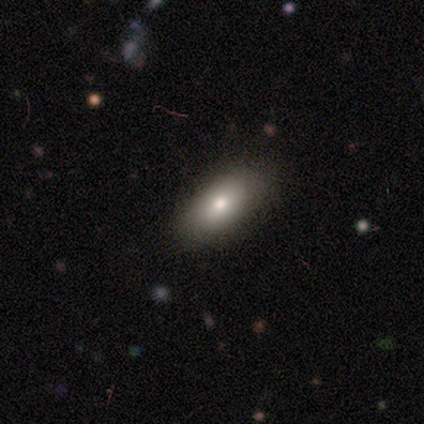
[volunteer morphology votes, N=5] A smooth galaxy with no disk features (80%) that is in between round and cigar-shaped (100%).

Vote fractions:
- Smooth or featured? smooth: 80% / featured or disk: 20% / star or artifact: 0%
- How rounded? in between: 100% / round: 0% / cigar-shaped: 0%
- Merging? none: 100% / minor disturbance: 0% / major disturbance: 0% / merger: 0%